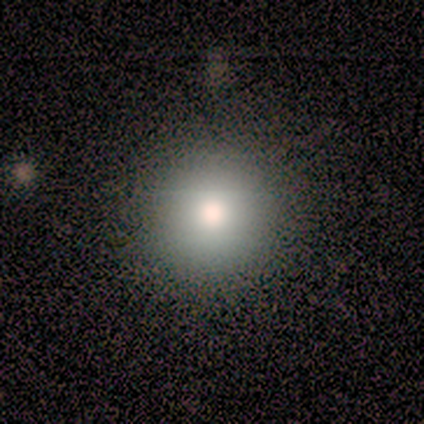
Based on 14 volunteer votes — Smooth or featured?
  - smooth: 71% *
  - star or artifact: 29%
  - featured or disk: 0%
How rounded?
  - round: 100% *
  - in between: 0%
  - cigar-shaped: 0%
Merging?
  - none: 80% *
  - minor disturbance: 20%
  - major disturbance: 0%
  - merger: 0%